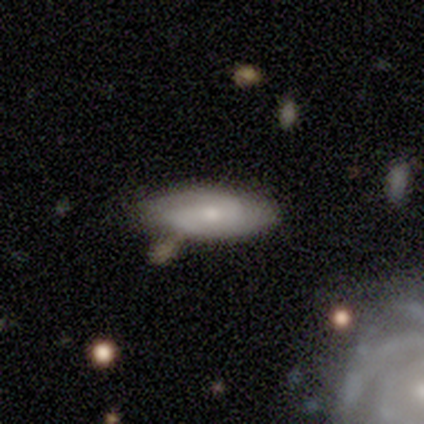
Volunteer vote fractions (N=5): Morphology: type=smooth (60%); roundness=in between (67%); merging=none (40%, tied with minor disturbance).